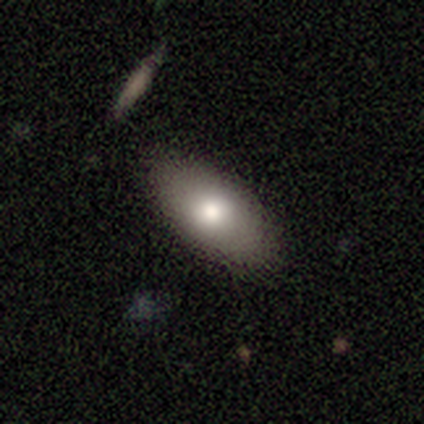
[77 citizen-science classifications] This appears to be a smooth galaxy with no disk features (82%) that is in between round and cigar-shaped (95%). Merging: none (55%).